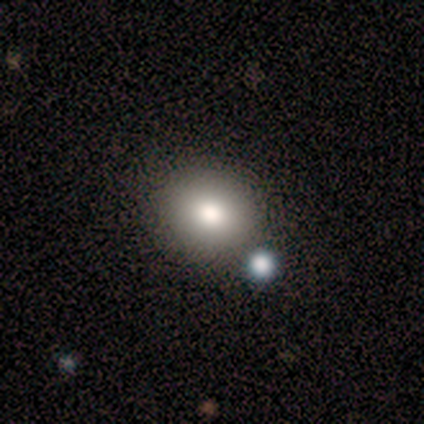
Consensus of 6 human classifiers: This is likely a smooth galaxy (67%). How rounded: clearly round (100%). Merging: likely none (67%).